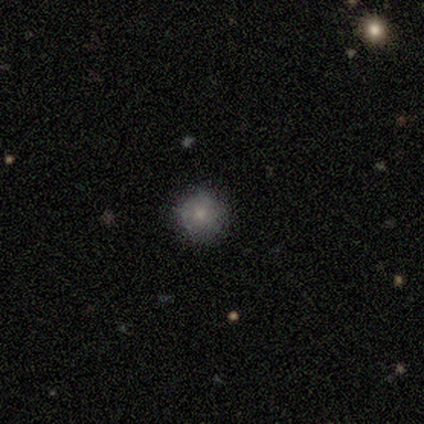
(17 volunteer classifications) Morphology: type=smooth (82%); roundness=round (100%); merging=none (93%).